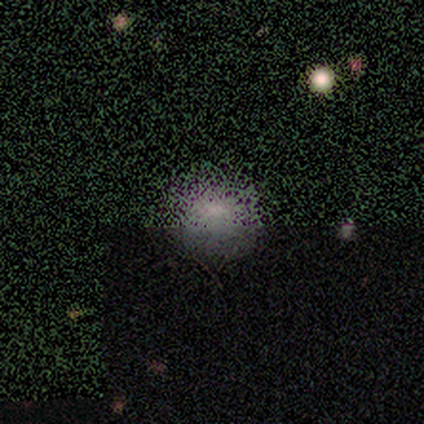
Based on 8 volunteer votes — Overall: star or artifact (62%; smooth 38%).